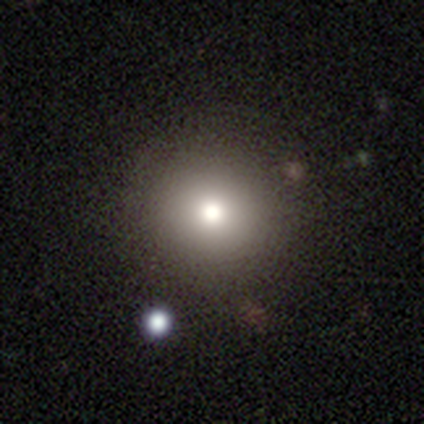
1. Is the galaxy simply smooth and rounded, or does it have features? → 100% smooth, 0% featured or disk, 0% star or artifact.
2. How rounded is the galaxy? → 100% round, 0% in between, 0% cigar-shaped.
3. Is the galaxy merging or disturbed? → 100% none, 0% minor disturbance, 0% major disturbance, 0% merger.